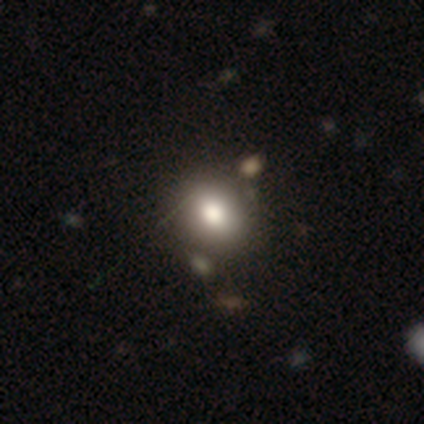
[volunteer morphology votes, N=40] Smooth or featured?
  - smooth: 78% *
  - featured or disk: 12%
  - star or artifact: 10%
How rounded?
  - round: 61% *
  - in between: 39%
  - cigar-shaped: 0%
Merging?
  - none: 58% *
  - merger: 22%
  - minor disturbance: 3%
  - major disturbance: 0%